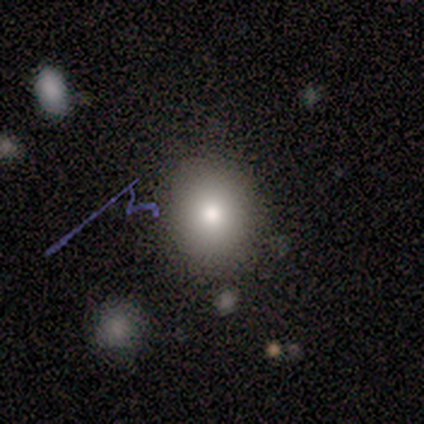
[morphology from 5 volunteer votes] A smooth galaxy with no disk features (60%) that is round (67%). Merging: minor disturbance (100%).